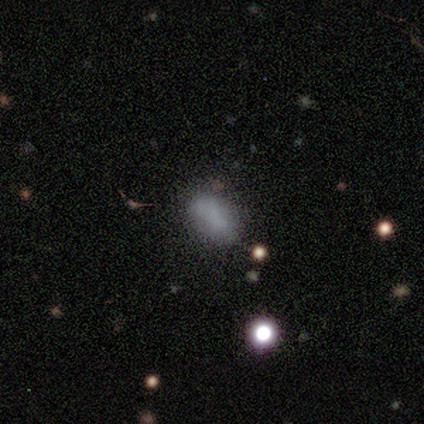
smooth 40% (tied), star or artifact 40% (tied), featured or disk 20%. Down the decision tree: how rounded — in between (100%); merging — none (67%).